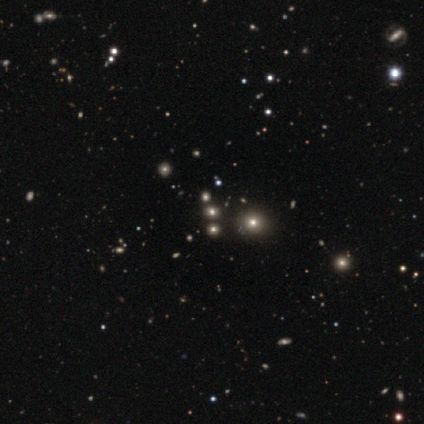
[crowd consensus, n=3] Volunteers were most divided on "smooth or featured": star or artifact: 67%, smooth: 33%, featured or disk: 0%.